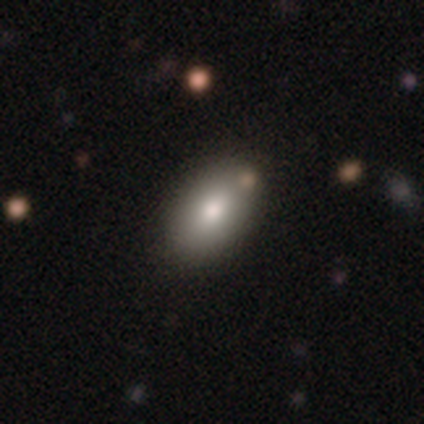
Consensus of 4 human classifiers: Overall: smooth (100%). How rounded: in between (100%). Merging: none (100%).